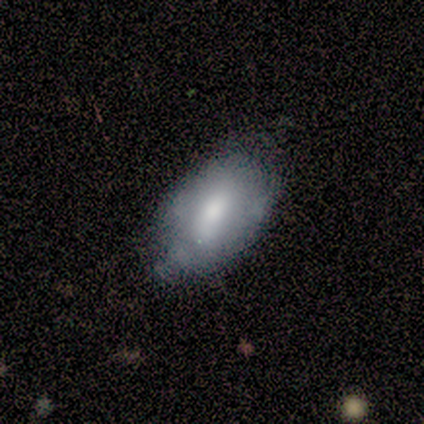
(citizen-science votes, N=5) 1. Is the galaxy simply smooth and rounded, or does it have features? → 60% featured or disk, 40% smooth, 0% star or artifact.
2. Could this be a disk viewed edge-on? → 100% no, 0% yes.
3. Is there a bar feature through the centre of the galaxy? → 67% no, 33% weak, 0% strong.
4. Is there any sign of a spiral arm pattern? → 67% no, 33% yes.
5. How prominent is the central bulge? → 67% moderate, 33% small, 0% dominant, 0% large, 0% none.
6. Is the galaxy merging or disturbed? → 40% none (tied), 40% minor disturbance (tied), 20% merger, 0% major disturbance.